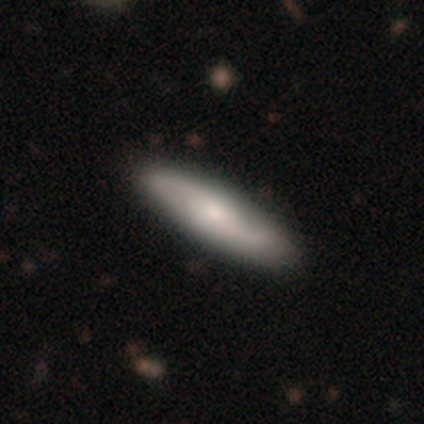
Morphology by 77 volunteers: type=featured or disk (53%); edge-on=no (83%); bar=no (65%); spiral arms=yes (97%); winding=loose (73%); arm count=2 (88%); bulge=moderate (53%); merging=none (46%).